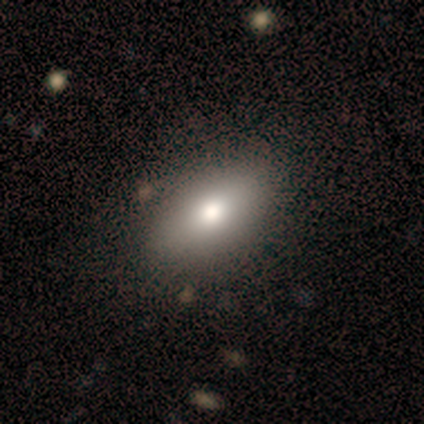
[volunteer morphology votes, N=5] Overall: smooth (80%). How rounded: in between (75%). Merging: none (50%; minor disturbance 25%).